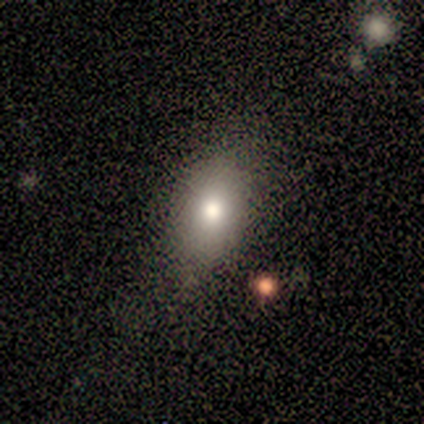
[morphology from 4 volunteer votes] A smooth galaxy with no disk features (50%) that is in between round and cigar-shaped (100%). Merging: none (67%).